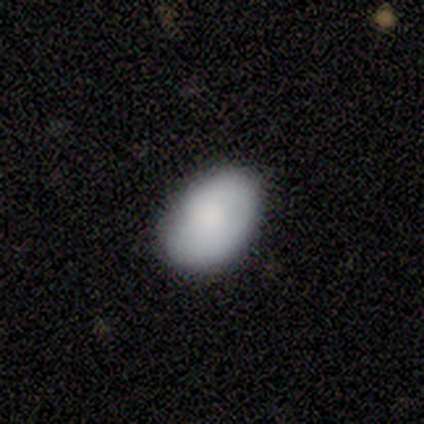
Q: Smooth or featured?
A: smooth (89%); runner-up: featured or disk (11%)
Q: How rounded?
A: in between (91%); runner-up: round (9%)
Q: Merging?
A: none (78%); runner-up: minor disturbance (19%)